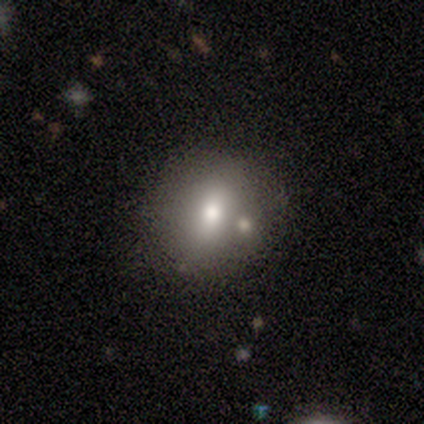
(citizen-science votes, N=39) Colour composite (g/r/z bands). It shows a smooth galaxy with no disk features (56%) that is round (73%). Merging: none (62%).